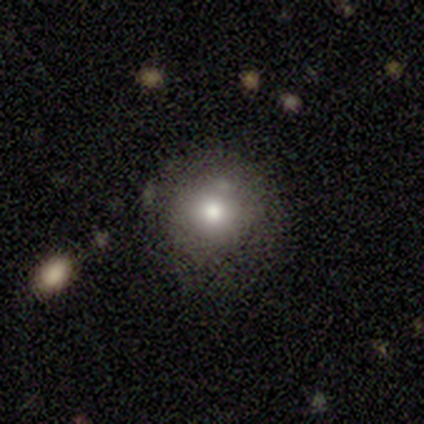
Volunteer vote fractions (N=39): This appears to be a smooth galaxy with no disk features (79%) that is round (84%). Merging: none (57%).